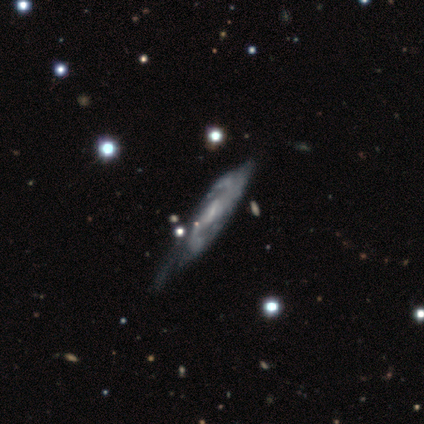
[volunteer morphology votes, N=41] Overall: featured or disk (90%). Edge-on disk: no (81%). Bar: weak (57%; no 23%). Spiral arms: yes (100%). Spiral arm count: 2 (67%). Spiral winding: medium (67%). Bulge size: small (60%; moderate 23%). Merging: none (32%; minor disturbance 29%).